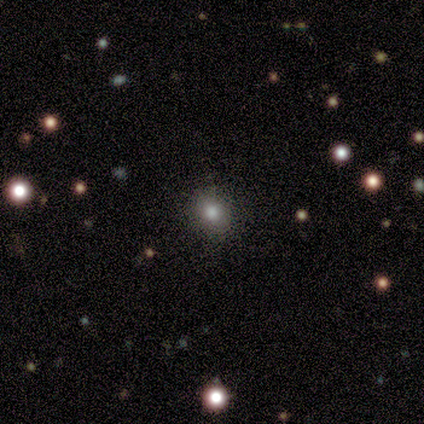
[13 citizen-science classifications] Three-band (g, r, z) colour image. It shows a smooth galaxy with no disk features (62%) that is round (50%, tied with in between). Merging: none (70%).